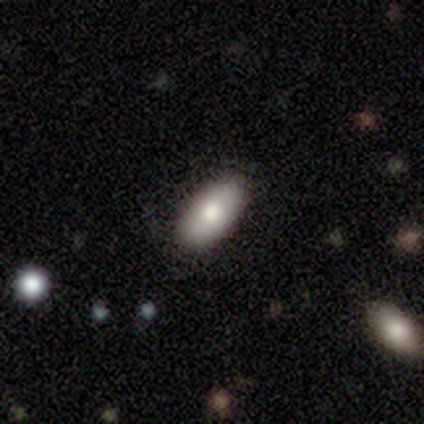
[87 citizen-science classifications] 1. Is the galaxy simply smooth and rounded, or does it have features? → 83% smooth, 11% featured or disk, 6% star or artifact.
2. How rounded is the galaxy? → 93% in between, 6% cigar-shaped, 1% round.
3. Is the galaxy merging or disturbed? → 85% none, 15% minor disturbance, 0% major disturbance, 0% merger.